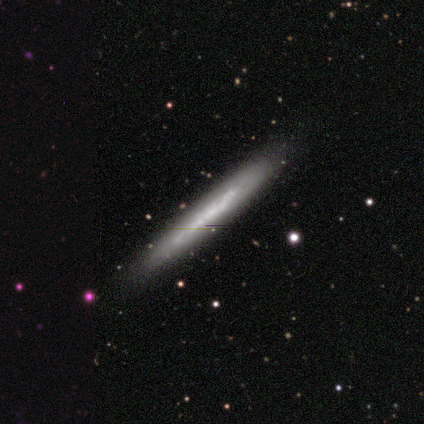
This is clearly a featured or disk galaxy (83%). It is clearly viewed edge-on (100%). Edge-on bulge: clearly none (100%). Merging: clearly none (100%).